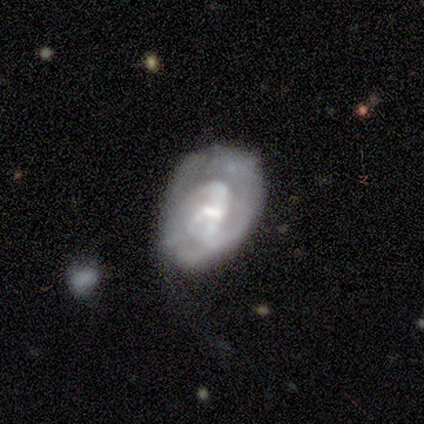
Smooth or featured? 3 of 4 (75%) said featured or disk. Edge-on disk? 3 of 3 (100%) said no. Bar? 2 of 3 (67%) said no. Spiral arms? 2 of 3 (67%) said no. Bulge size? 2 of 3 (67%) said small. Merging? 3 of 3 (100%) said major disturbance.